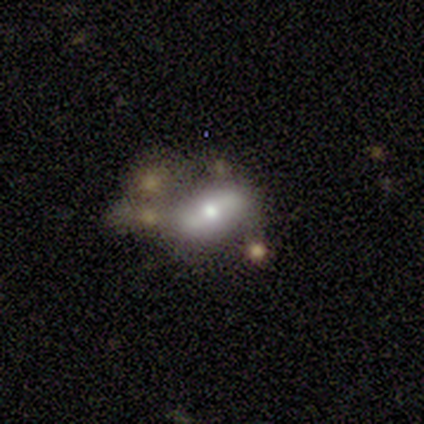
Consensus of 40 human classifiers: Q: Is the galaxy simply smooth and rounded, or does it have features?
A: featured or disk — 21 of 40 (52%).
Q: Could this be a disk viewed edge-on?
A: no — 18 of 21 (86%).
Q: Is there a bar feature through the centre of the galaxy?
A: no — 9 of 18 (50%).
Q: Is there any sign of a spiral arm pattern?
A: no — 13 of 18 (72%).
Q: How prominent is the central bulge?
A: moderate — 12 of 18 (67%).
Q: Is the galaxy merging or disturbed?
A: none — 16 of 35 (46%).